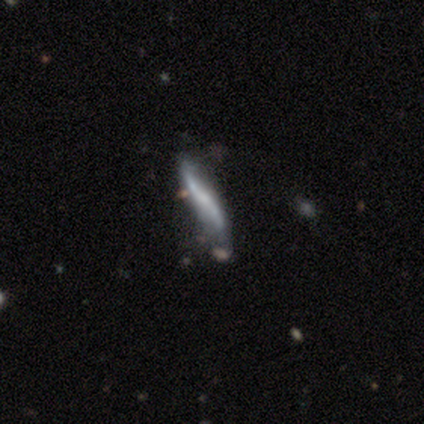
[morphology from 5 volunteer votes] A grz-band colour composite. It shows a featured or disk galaxy (80%) with a strong bar (67%), 2 (100%) loose (100%) spiral arms (100%) and a small central bulge (67%). Merging: none (80%).